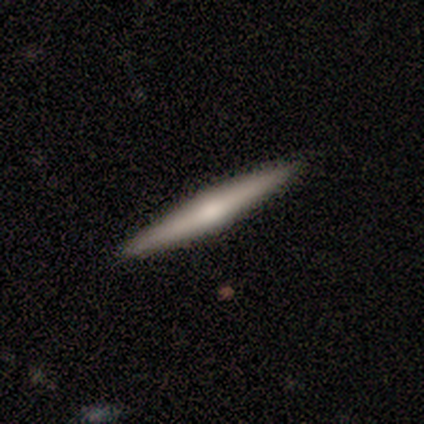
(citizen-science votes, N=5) Volunteers were most divided on "smooth or featured": featured or disk: 80%, smooth: 20%, star or artifact: 0%. More confident: edge-on disk — yes (100%); edge-on bulge — rounded (100%); merging — none (100%).